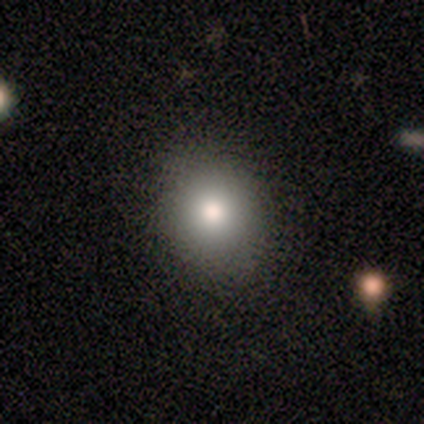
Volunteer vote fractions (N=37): smooth 73%, featured or disk 14%, star or artifact 14%. Down the decision tree: how rounded — round (67%); merging — none (91%).